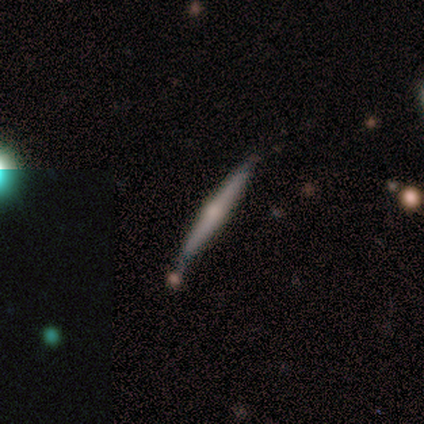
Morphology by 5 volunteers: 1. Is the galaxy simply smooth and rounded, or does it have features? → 100% featured or disk, 0% smooth, 0% star or artifact.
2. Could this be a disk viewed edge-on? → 100% yes, 0% no.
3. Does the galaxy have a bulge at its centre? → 100% rounded, 0% boxy, 0% none.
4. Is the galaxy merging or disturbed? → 60% none, 40% minor disturbance, 0% major disturbance, 0% merger.